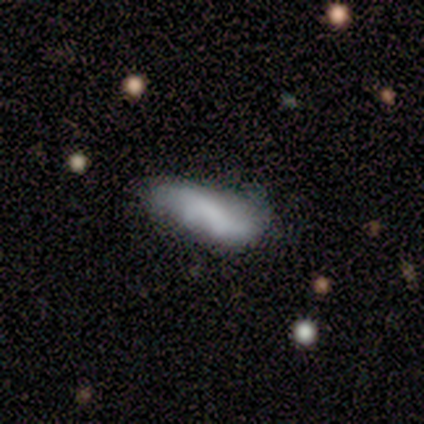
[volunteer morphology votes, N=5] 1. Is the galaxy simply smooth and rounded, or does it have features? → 60% featured or disk, 40% smooth, 0% star or artifact.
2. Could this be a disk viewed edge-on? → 100% no, 0% yes.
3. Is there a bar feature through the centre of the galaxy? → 67% no, 33% weak, 0% strong.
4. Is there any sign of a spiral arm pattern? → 100% no, 0% yes.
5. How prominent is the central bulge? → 100% none, 0% dominant, 0% large, 0% moderate, 0% small.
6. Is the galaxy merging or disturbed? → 60% minor disturbance, 40% none, 0% major disturbance, 0% merger.